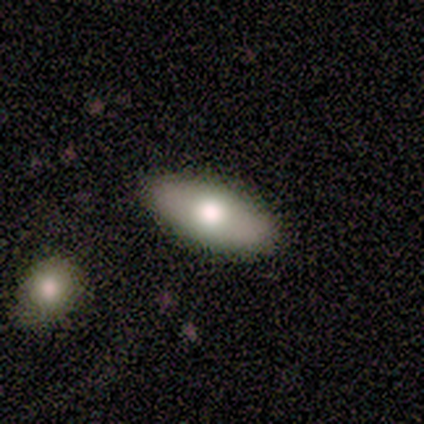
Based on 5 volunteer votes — smooth-or-featured: smooth: 80% | featured or disk: 20% | star or artifact: 0%
  how-rounded: in between: 100% | round: 0% | cigar-shaped: 0%
  merging: none: 100% | minor disturbance: 0% | major disturbance: 0% | merger: 0%